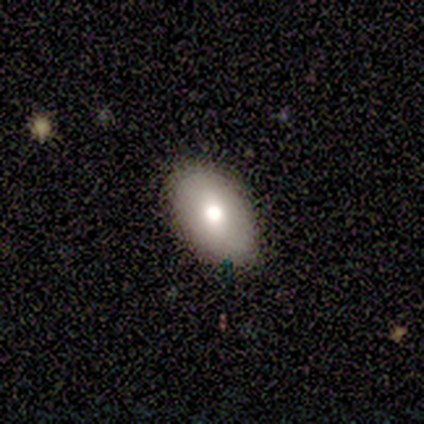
Smooth or featured? 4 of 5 (80%) said smooth. How rounded? 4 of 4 (100%) said in between. Merging? 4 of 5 (80%) said none.